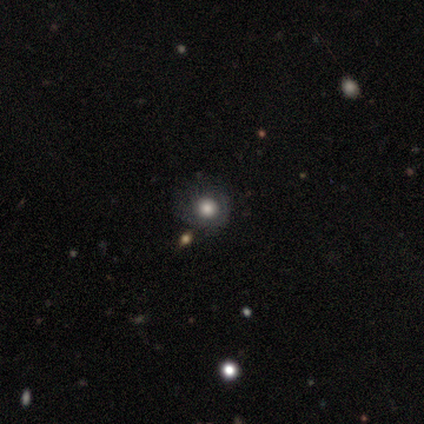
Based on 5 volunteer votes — smooth_or_featured: smooth (p=0.60) [alt: star or artifact p=0.40]
how_rounded: in between (p=0.67) [alt: round p=0.33]
merging: none (p=0.67) [alt: minor disturbance p=0.33]